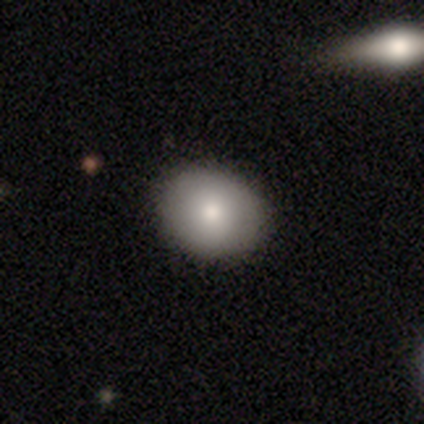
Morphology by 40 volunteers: smooth 82%, featured or disk 12%, star or artifact 5%. Down the decision tree: how rounded — round (52%); merging — none (66%).